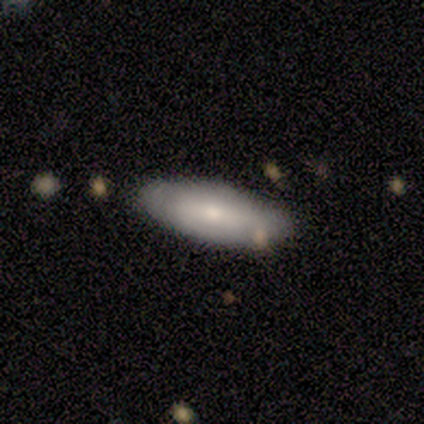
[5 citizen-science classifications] smooth_or_featured: smooth (p=0.80) [alt: featured or disk p=0.20]
how_rounded: in between (p=0.50) [tied with: cigar-shaped p=0.50]
merging: none (p=1.00)